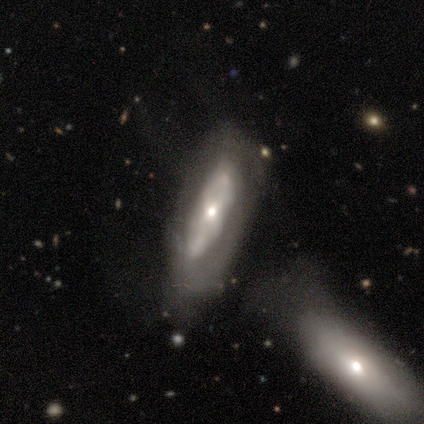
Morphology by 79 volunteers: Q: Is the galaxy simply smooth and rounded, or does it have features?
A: featured or disk — 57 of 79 (72%).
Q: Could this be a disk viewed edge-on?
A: no — 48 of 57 (84%).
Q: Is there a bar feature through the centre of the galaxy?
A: no — 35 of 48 (73%).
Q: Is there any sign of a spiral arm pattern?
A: no — 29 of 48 (60%).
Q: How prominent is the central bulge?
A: small — 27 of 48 (56%).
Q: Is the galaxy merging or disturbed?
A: merger — 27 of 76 (36%).